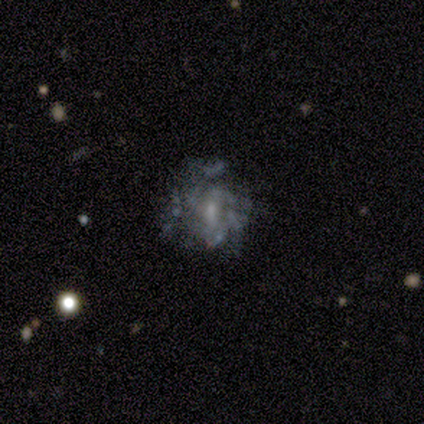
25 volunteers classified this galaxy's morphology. This is likely a featured or disk galaxy (60%). It is clearly not viewed edge-on (100%). Bar: clearly weak (80%). Spiral arm pattern: likely yes (60%). Spiral arm count: likely can't tell (67%). Spiral winding: marginally loose (44%). Central bulge: likely small (60%). Merging: marginally major disturbance (42%).